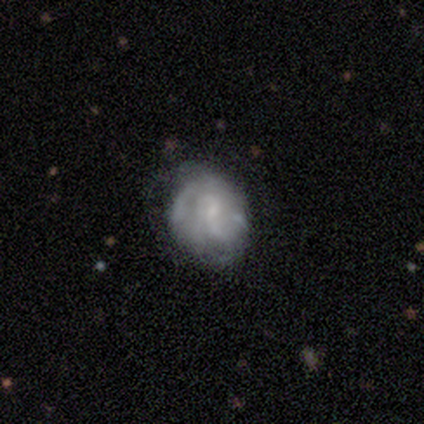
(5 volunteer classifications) Volunteers were most divided on "spiral arm count" (3-way tie): 2: 33%, 3: 33%, can't tell: 33%, 1: 0%, 4: 0%, more than 4: 0%. More confident: edge-on disk — no (100%); smooth or featured — featured or disk (80%); bar — no (75%); spiral arms — yes (75%); bulge size — none (75%); merging — none (75%); spiral winding — medium (67%).